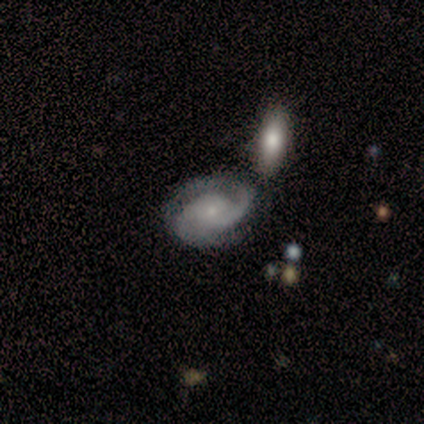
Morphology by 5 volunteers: Smooth or featured: featured or disk — 100%
Edge-on disk: no — 100%
Bar: no — 100%
Spiral arms: yes — 100%
Spiral winding: medium — 60% (tight — 20%)
Spiral arm count: 1 — 40% (tied with 2 — 40%)
Bulge size: small — 80% (none — 20%)
Merging: none — 40% (tied with major disturbance — 40%)